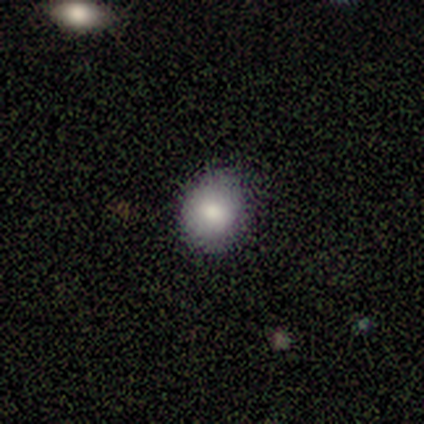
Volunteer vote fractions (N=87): Overall: smooth (80%). How rounded: round (77%). Merging: none (81%).